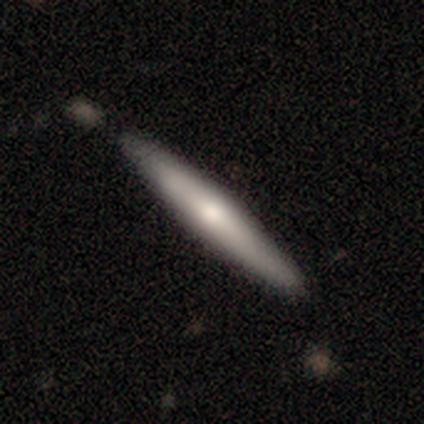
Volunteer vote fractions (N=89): featured or disk 49%, smooth 48%, star or artifact 2%. Down the decision tree: edge-on disk — yes (93%); edge-on bulge — rounded (85%); merging — none (84%).